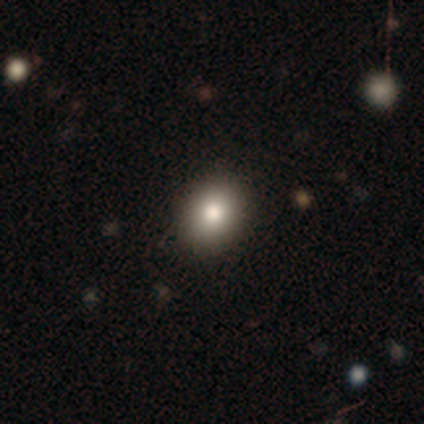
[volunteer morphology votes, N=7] smooth 57%, featured or disk 29%, star or artifact 14%. Down the decision tree: how rounded — in between (75%); merging — none (83%).